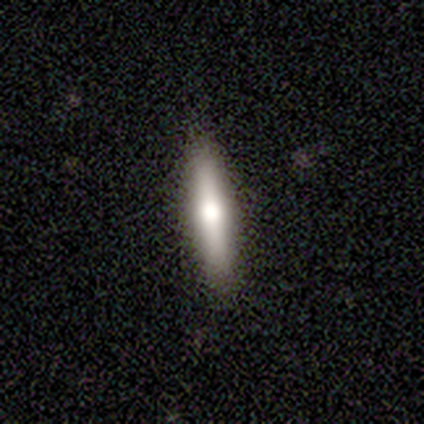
Smooth or featured: featured or disk — 60% (smooth — 40%)
Edge-on disk: yes — 67% (no — 33%)
Edge-on bulge: rounded — 100%
Merging: none — 100%